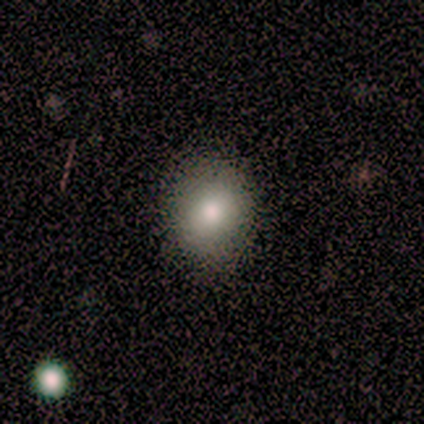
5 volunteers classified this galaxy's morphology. Smooth or featured?
  - smooth: 80% *
  - featured or disk: 20%
  - star or artifact: 0%
How rounded?
  - round: 75% *
  - in between: 25%
  - cigar-shaped: 0%
Merging?
  - none: 100% *
  - minor disturbance: 0%
  - major disturbance: 0%
  - merger: 0%